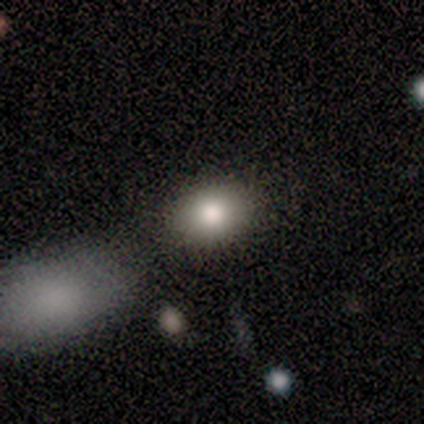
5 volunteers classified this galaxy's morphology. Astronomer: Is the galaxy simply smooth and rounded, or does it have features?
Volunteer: smooth — 60%.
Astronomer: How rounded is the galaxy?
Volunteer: round — 67%.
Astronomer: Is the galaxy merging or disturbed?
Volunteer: none — 75%.